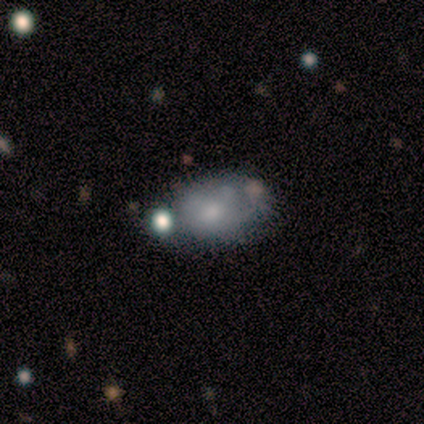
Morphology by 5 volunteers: Smooth or featured? smooth (60%)
How rounded? in between (100%)
Merging? minor disturbance (60%)